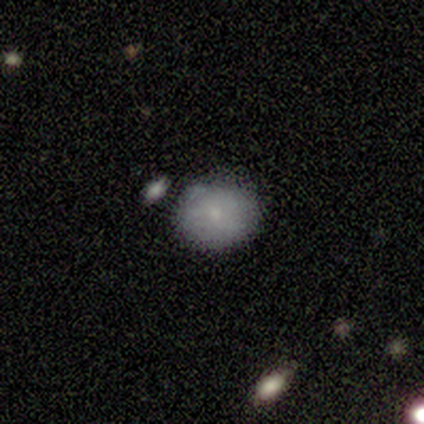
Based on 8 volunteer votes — A smooth galaxy with no disk features (88%) that is round (57%).

Vote fractions:
- Smooth or featured? smooth: 88% / featured or disk: 12% / star or artifact: 0%
- How rounded? round: 57% / in between: 43% / cigar-shaped: 0%
- Merging? none: 50% / minor disturbance: 25% / major disturbance: 12% / merger: 12%